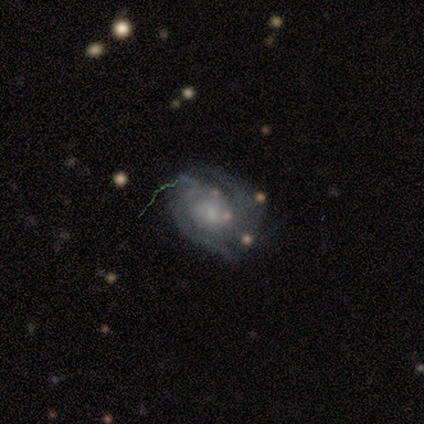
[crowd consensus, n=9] Smooth or featured: featured or disk — 89% (smooth — 11%)
Edge-on disk: no — 100%
Bar: no — 62% (weak — 38%)
Spiral arms: yes — 100%
Spiral winding: tight — 75% (medium — 25%)
Spiral arm count: 2 — 50% (can't tell — 38%)
Bulge size: small — 75% (large — 12%)
Merging: none — 56% (minor disturbance — 44%)